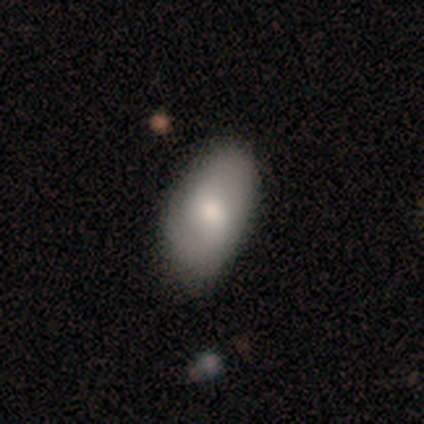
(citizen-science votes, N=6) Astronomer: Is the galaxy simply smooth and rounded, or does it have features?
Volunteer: smooth — 50%, tied with featured or disk at 50%.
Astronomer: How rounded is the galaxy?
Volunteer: in between — 100%.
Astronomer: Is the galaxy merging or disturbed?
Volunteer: none — 100%.